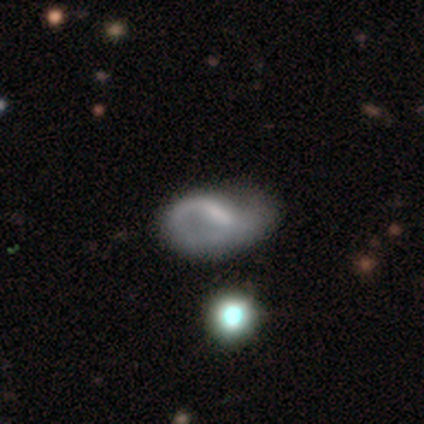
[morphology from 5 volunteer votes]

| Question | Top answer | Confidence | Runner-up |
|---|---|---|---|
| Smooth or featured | featured or disk | 80% | smooth (20%) |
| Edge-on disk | no | 100% | — |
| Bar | weak | 100% | — |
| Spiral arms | yes | 100% | — |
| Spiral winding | tight | 50% | tied: loose (50%) |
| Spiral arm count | can't tell | 75% | 1 (25%) |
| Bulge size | none | 50% | large (25%) |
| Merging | none | 80% | minor disturbance (20%) |